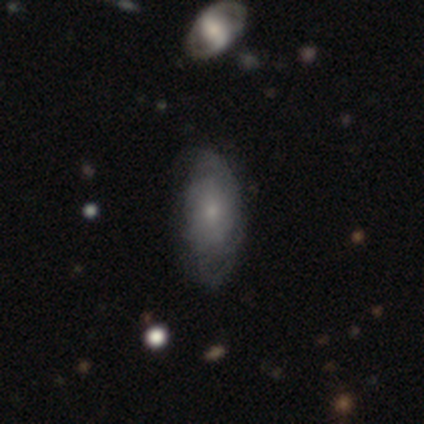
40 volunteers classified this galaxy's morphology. A featured or disk galaxy (48%) with no bar (67%), tight (75%) spiral arms (67%) and a small central bulge (78%). Merging: none (68%).